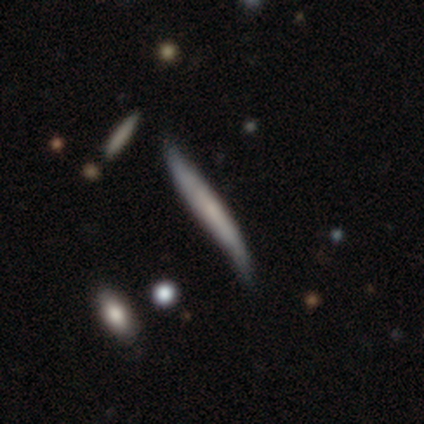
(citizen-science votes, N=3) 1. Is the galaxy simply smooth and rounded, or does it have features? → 67% featured or disk, 33% smooth, 0% star or artifact.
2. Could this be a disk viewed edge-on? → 100% yes, 0% no.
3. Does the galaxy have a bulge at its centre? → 50% boxy (tied), 50% none (tied), 0% rounded.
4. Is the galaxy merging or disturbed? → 33% none (tied), 33% minor disturbance (tied), 33% major disturbance (tied), 0% merger.